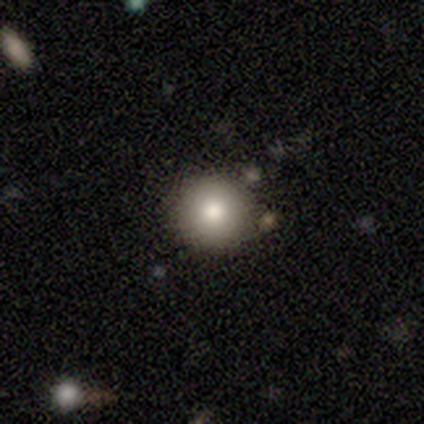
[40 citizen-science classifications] Q: Smooth or featured?
A: smooth (80%); runner-up: featured or disk (15%)
Q: How rounded?
A: round (97%); runner-up: in between (3%)
Q: Merging?
A: none (87%); runner-up: minor disturbance (8%)